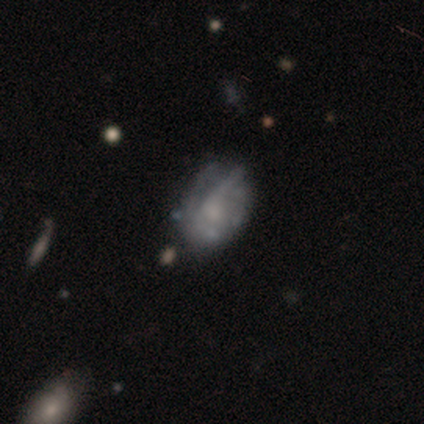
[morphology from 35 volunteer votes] Q: Smooth or featured?
A: featured or disk (49%); runner-up: smooth (43%)
Q: Edge-on disk?
A: no (94%); runner-up: yes (6%)
Q: Bar?
A: no (94%); runner-up: weak (6%)
Q: Spiral arms?
A: no (75%); runner-up: yes (25%)
Q: Bulge size?
A: none (44%); runner-up: small (31%)
Q: Merging?
A: minor disturbance (47%); runner-up: none (41%)